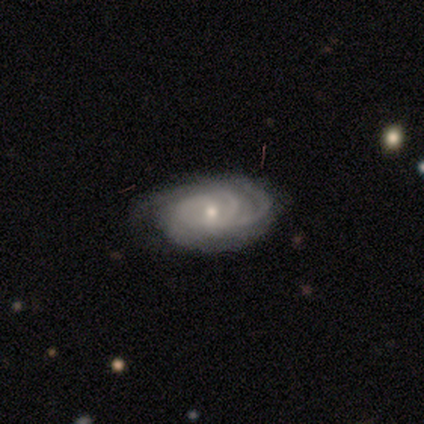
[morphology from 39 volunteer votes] Smooth or featured? 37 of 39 (95%) said featured or disk. Edge-on disk? 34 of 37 (92%) said no. Bar? 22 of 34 (65%) said no. Spiral arms? 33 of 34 (97%) said yes. Spiral winding? 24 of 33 (73%) said tight. Spiral arm count? 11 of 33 (33%) said 3. Bulge size? 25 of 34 (74%) said small. Merging? 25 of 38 (66%) said none.